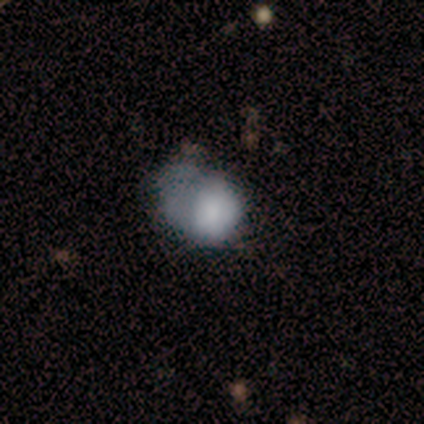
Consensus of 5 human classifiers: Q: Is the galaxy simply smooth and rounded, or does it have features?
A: smooth — 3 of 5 (60%).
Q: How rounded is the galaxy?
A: in between — 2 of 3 (67%).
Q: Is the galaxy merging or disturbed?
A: major disturbance — 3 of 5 (60%).